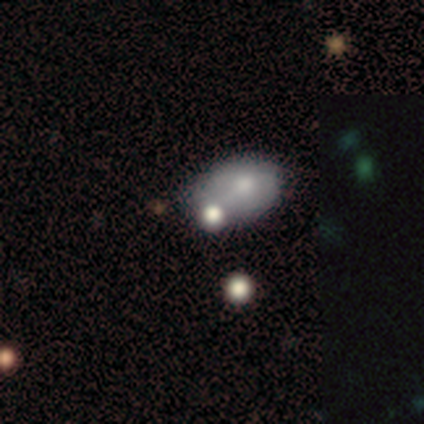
Overall: smooth (71%). How rounded: in between (80%). Merging: minor disturbance (40%; none 20%).